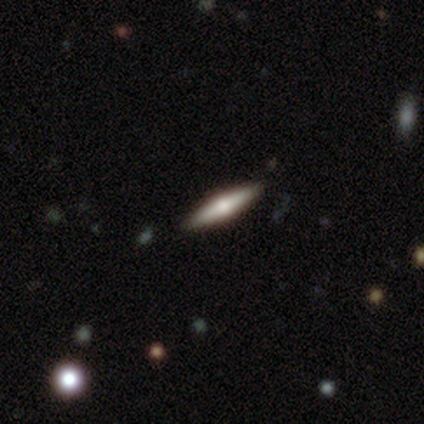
Smooth or featured? 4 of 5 (80%) said featured or disk. Edge-on disk? 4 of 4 (100%) said yes. Edge-on bulge? 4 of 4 (100%) said rounded. Merging? 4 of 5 (80%) said none.